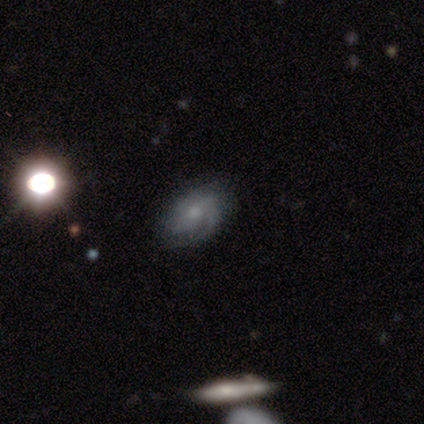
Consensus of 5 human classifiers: Smooth or featured? 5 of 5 (100%) said featured or disk. Edge-on disk? 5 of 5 (100%) said no. Bar? 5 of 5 (100%) said no. Spiral arms? 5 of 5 (100%) said yes. Spiral winding? 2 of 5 (40%, tied with medium) said tight. Spiral arm count? 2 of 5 (40%) said 2. Bulge size? 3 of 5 (60%) said moderate. Merging? 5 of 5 (100%) said none.